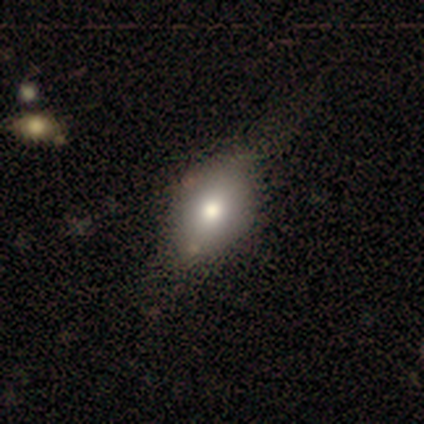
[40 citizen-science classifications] Smooth or featured: smooth — 82% (featured or disk — 12%)
How rounded: in between — 76% (round — 24%)
Merging: none — 42% (minor disturbance — 21%)